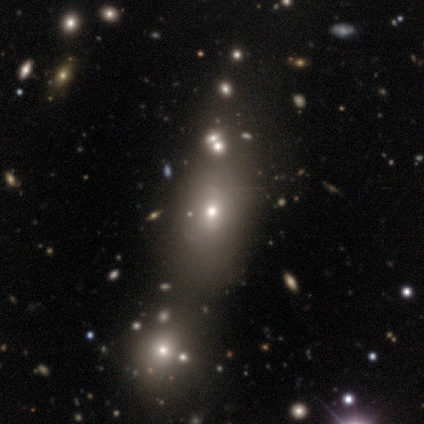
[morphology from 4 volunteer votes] smooth-or-featured: smooth: 50% | featured or disk: 25% | star or artifact: 25%
  how-rounded: round: 50% (tied) | in between: 50% (tied) | cigar-shaped: 0%
  merging: none: 67% | minor disturbance: 33% | major disturbance: 0% | merger: 0%